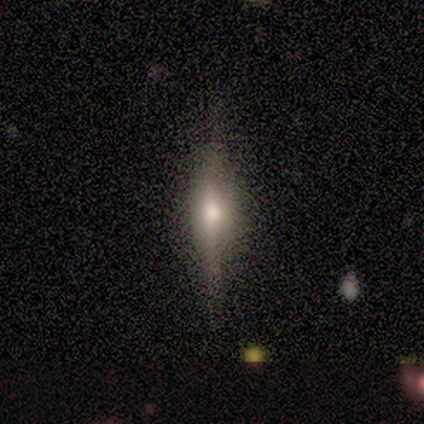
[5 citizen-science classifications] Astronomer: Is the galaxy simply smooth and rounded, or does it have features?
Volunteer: featured or disk — 100%.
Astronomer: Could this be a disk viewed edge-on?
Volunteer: yes — 100%.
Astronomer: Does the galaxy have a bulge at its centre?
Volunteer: rounded — 100%.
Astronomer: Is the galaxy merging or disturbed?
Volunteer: none — 100%.